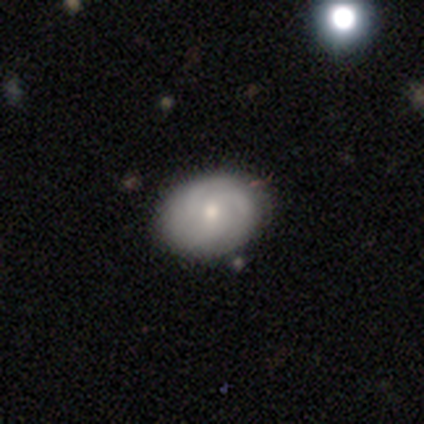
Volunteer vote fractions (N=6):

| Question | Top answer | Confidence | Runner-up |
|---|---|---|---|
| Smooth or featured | featured or disk | 50% | star or artifact (33%) |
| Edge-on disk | no | 67% | yes (33%) |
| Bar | weak | 50% | tied: no (50%) |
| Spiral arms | yes | 50% | tied: no (50%) |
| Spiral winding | medium | 100% | — |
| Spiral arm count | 3 | 100% | — |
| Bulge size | small | 100% | — |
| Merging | none | 100% | — |